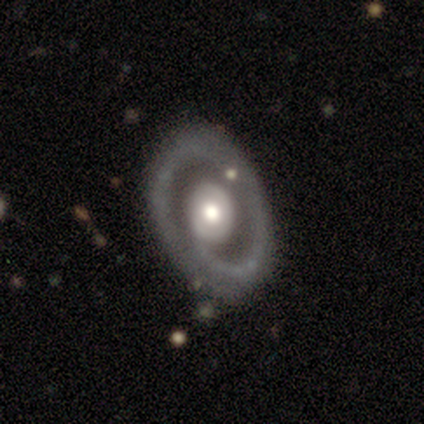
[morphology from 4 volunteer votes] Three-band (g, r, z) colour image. It shows a featured or disk galaxy (100%) with no bar (50%), 1 (67%) loose (67%) spiral arms (75%) and a moderate central bulge (75%). Merging: none (75%).